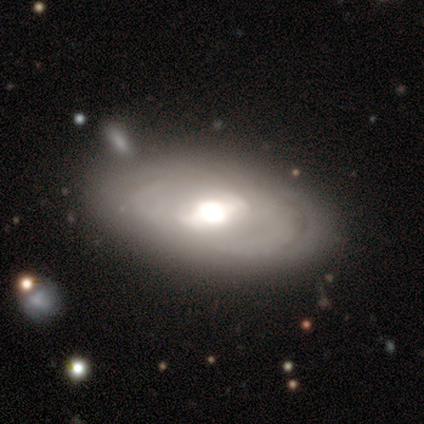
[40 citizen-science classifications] A featured or disk galaxy (60%) with a strong bar (45%, tied with weak), tight (77%) spiral arms (65%) and a large central bulge (50%). Merging: none (60%).